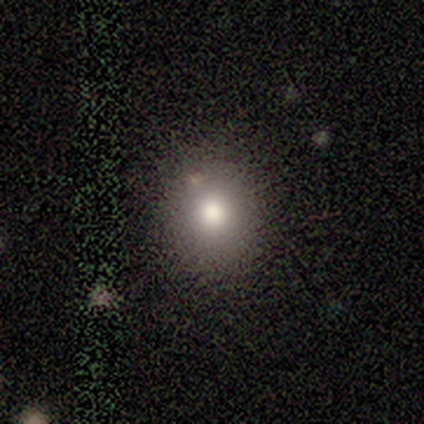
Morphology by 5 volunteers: Smooth or featured: smooth — 80% (featured or disk — 20%)
How rounded: round — 100%
Merging: none — 100%